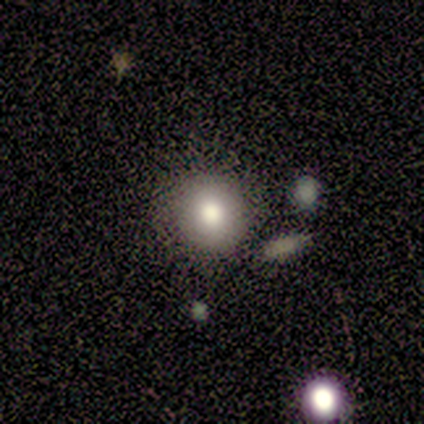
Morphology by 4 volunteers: A star or artifact, not a galaxy (75%).

Vote fractions:
- Smooth or featured? star or artifact: 75% / smooth: 25% / featured or disk: 0%